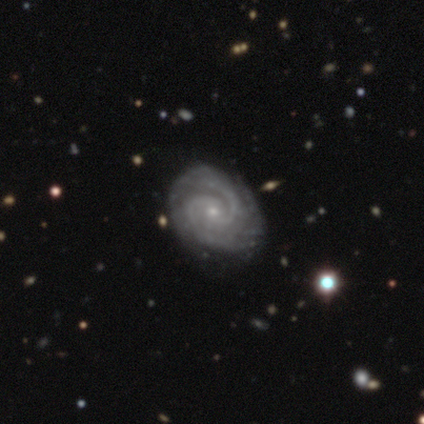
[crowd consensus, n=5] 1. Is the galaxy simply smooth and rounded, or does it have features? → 100% featured or disk, 0% smooth, 0% star or artifact.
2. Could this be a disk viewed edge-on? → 100% no, 0% yes.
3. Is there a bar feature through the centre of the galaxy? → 60% no, 20% strong, 20% weak.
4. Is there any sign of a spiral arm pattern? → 100% yes, 0% no.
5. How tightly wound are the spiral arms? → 60% tight, 40% medium, 0% loose.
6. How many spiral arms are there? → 60% 2, 20% 3, 20% can't tell, 0% 1, 0% 4, 0% more than 4.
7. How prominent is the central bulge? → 100% small, 0% dominant, 0% large, 0% moderate, 0% none.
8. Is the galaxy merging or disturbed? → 80% none, 20% minor disturbance, 0% major disturbance, 0% merger.